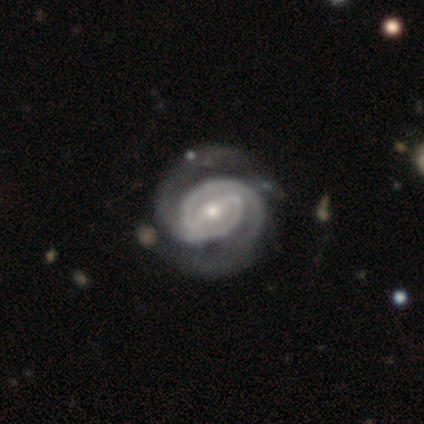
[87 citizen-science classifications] smooth-or-featured: featured or disk: 92% | smooth: 6% | star or artifact: 2%
  disk-edge-on: no: 99% | yes: 1%
    bar: strong: 49% | weak: 38% | no: 13%
    has-spiral-arms: yes: 99% | no: 1%
      spiral-winding: tight: 73% | medium: 26% | loose: 1%
      spiral-arm-count: 2: 90% | 1: 3% | 3: 3% | 4: 3% | more than 4: 1% | can't tell: 1%
    bulge-size: small: 54% | moderate: 38% | large: 5% | dominant: 1% | none: 1%
  merging: none: 75% | minor disturbance: 15% | major disturbance: 6% | merger: 4%